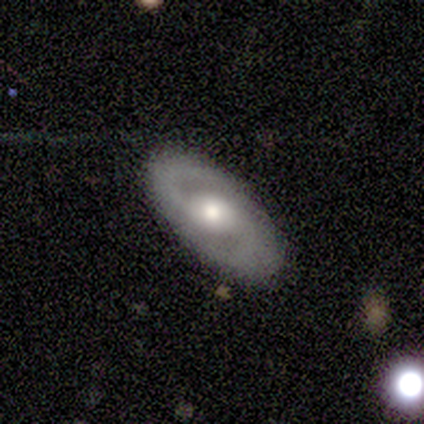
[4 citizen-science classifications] Smooth or featured?
  - featured or disk: 100% *
  - smooth: 0%
  - star or artifact: 0%
Edge-on disk?
  - no: 75% *
  - yes: 25%
Bar?
  - no: 67% *
  - weak: 33%
  - strong: 0%
Spiral arms?
  - yes: 67% *
  - no: 33%
Spiral winding?
  - medium: 50% * (tied)
  - loose: 50% * (tied)
  - tight: 0%
Spiral arm count?
  - 2: 100% *
  - 1: 0%
  - 3: 0%
  - 4: 0%
  - more than 4: 0%
  - can't tell: 0%
Bulge size?
  - moderate: 100% *
  - dominant: 0%
  - large: 0%
  - small: 0%
  - none: 0%
Merging?
  - none: 75% *
  - minor disturbance: 25%
  - major disturbance: 0%
  - merger: 0%